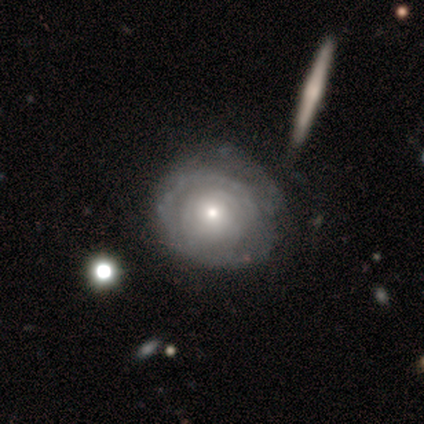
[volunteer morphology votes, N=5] A featured or disk galaxy (80%) with no bar (100%), tight (100%) spiral arms (75%) and a small central bulge (100%).

Vote fractions:
- Smooth or featured? featured or disk: 80% / smooth: 20% / star or artifact: 0%
- Edge-on disk? no: 100% / yes: 0%
- Bar? no: 100% / strong: 0% / weak: 0%
- Spiral arms? yes: 75% / no: 25%
- Spiral winding? tight: 100% / medium: 0% / loose: 0%
- Spiral arm count? can't tell: 67% / 3: 33% / 1: 0% / 2: 0% / 4: 0% / more than 4: 0%
- Bulge size? small: 100% / dominant: 0% / large: 0% / moderate: 0% / none: 0%
- Merging? none: 60% / minor disturbance: 20% / major disturbance: 20% / merger: 0%